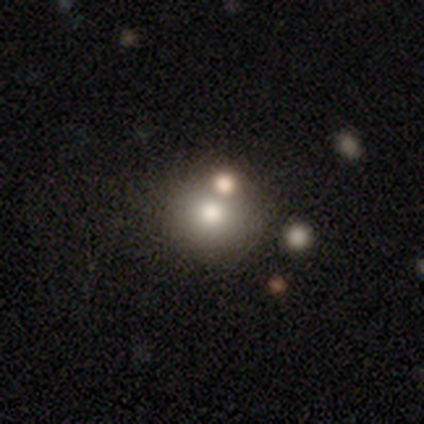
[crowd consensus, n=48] Smooth or featured: smooth — 79% (featured or disk — 15%)
How rounded: round — 92% (in between — 8%)
Merging: none — 67% (merger — 22%)